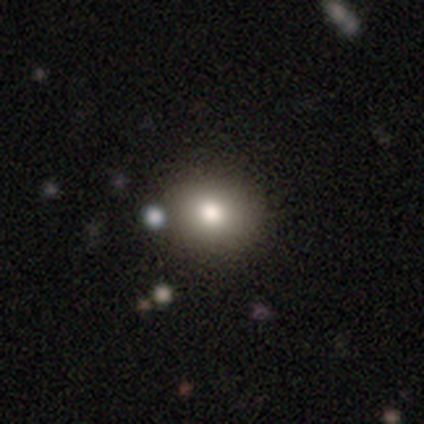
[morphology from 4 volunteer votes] Smooth or featured? 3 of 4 (75%) said smooth. How rounded? 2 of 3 (67%) said round. Merging? 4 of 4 (100%) said none.